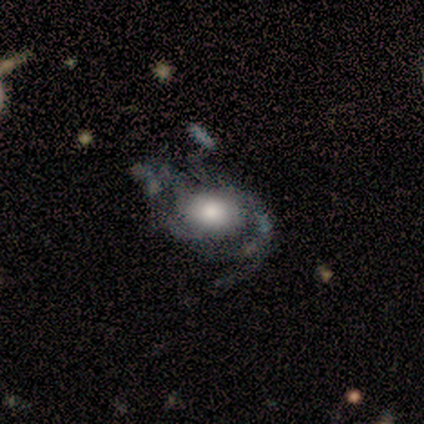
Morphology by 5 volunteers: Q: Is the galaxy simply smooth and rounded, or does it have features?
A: featured or disk — 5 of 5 (100%).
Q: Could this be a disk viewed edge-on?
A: no — 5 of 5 (100%).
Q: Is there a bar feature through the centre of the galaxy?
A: no — 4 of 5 (80%).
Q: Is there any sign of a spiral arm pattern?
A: yes — 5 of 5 (100%).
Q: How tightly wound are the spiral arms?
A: medium — 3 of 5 (60%).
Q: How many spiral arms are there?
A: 1 — 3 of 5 (60%).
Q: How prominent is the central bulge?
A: large — 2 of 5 (40%, tied with small).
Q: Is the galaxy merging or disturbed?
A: none — 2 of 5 (40%, tied with minor disturbance).